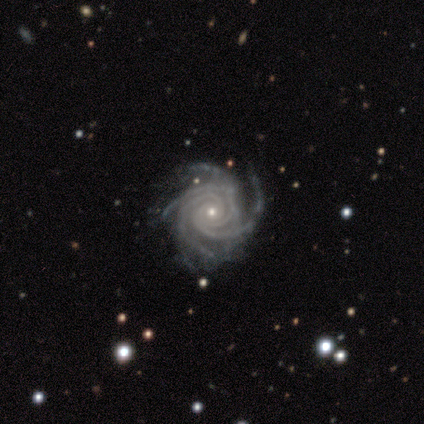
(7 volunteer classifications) A featured or disk galaxy (100%) with no bar (57%), 3 (43%, tied with 4) tight (86%) spiral arms (100%) and a small central bulge (86%).

Vote fractions:
- Smooth or featured? featured or disk: 100% / smooth: 0% / star or artifact: 0%
- Edge-on disk? no: 100% / yes: 0%
- Bar? no: 57% / strong: 29% / weak: 14%
- Spiral arms? yes: 100% / no: 0%
- Spiral winding? tight: 86% / medium: 14% / loose: 0%
- Spiral arm count? 3: 43% (tied) / 4: 43% (tied) / more than 4: 14% / 1: 0% / 2: 0% / can't tell: 0%
- Bulge size? small: 86% / moderate: 14% / dominant: 0% / large: 0% / none: 0%
- Merging? none: 71% / minor disturbance: 14% / merger: 14% / major disturbance: 0%